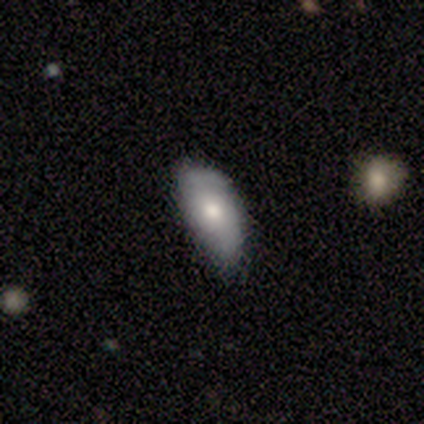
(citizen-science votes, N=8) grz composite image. It shows a smooth galaxy with no disk features (75%) that is in between round and cigar-shaped (100%). Merging: none (71%).